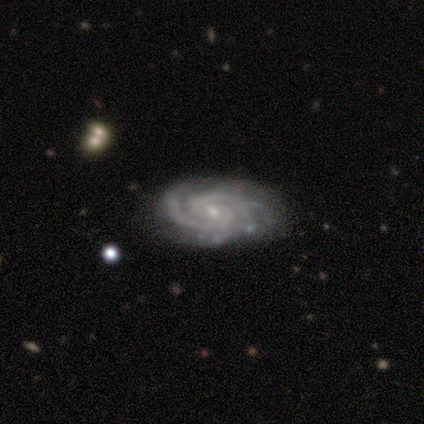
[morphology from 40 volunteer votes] A featured or disk galaxy (95%) with a weak bar (53%), 2 (50%) tight (63%) spiral arms (100%) and a small central bulge (92%).

Vote fractions:
- Smooth or featured? featured or disk: 95% / smooth: 2% / star or artifact: 2%
- Edge-on disk? no: 100% / yes: 0%
- Bar? weak: 53% / no: 42% / strong: 5%
- Spiral arms? yes: 100% / no: 0%
- Spiral winding? tight: 63% / medium: 29% / loose: 8%
- Spiral arm count? 2: 50% / 3: 42% / can't tell: 5% / 4: 3% / 1: 0% / more than 4: 0%
- Bulge size? small: 92% / moderate: 8% / dominant: 0% / large: 0% / none: 0%
- Merging? none: 82% / minor disturbance: 18% / major disturbance: 0% / merger: 0%